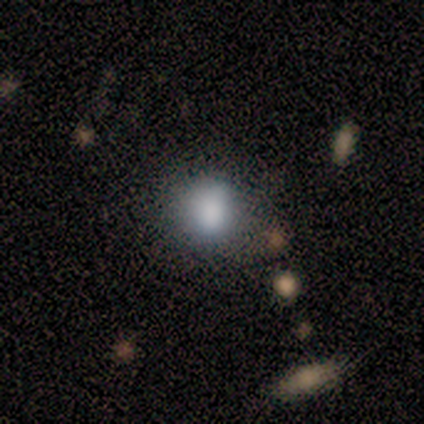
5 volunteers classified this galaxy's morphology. type=smooth (100%); roundness=round (100%); merging=none (80%).